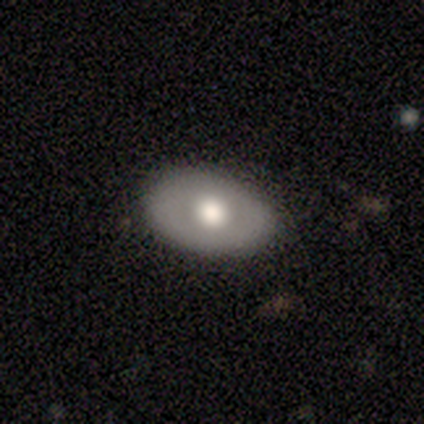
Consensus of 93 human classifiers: A smooth galaxy with no disk features (59%) that is in between round and cigar-shaped (85%). Merging: none (82%).